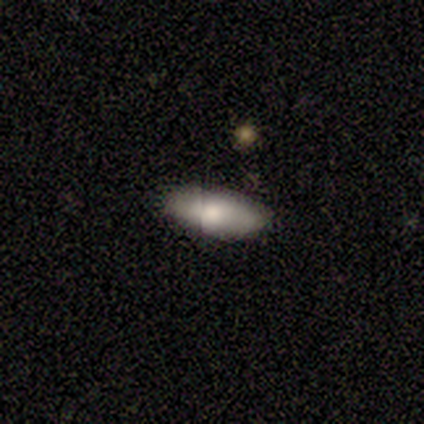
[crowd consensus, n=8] Smooth or featured? 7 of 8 (88%) said smooth. How rounded? 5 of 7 (71%) said in between. Merging? 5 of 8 (62%) said none.